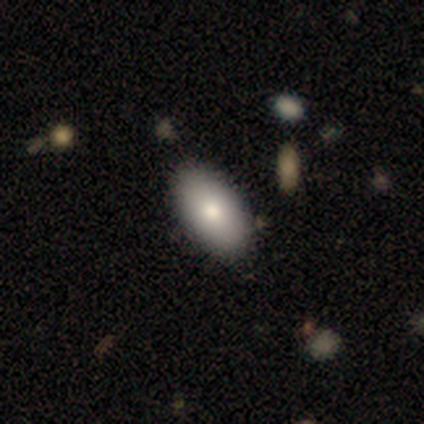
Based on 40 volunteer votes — smooth 98%, featured or disk 2%, star or artifact 0%. Down the decision tree: how rounded — in between (95%); merging — none (60%).